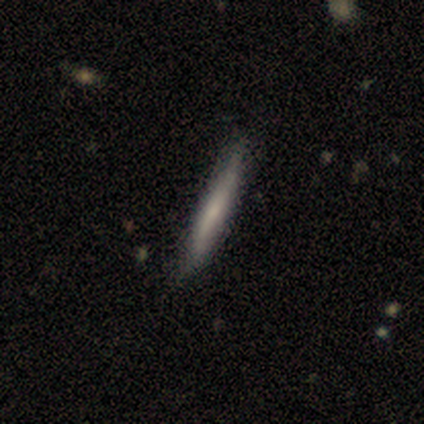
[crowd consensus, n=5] Smooth or featured? 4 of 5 (80%) said smooth. How rounded? 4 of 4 (100%) said cigar-shaped. Merging? 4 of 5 (80%) said none.